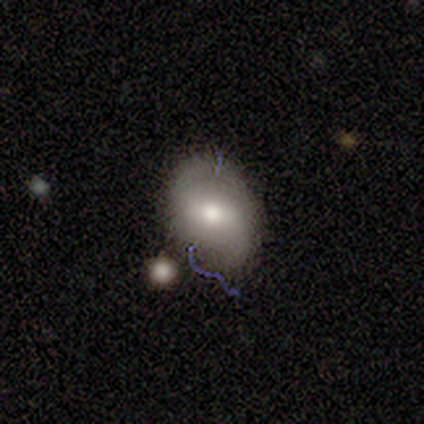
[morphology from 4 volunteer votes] Smooth or featured: star or artifact — 75% (featured or disk — 25%)